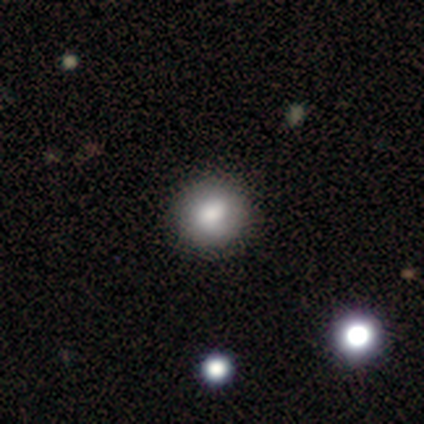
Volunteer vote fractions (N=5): Morphology: type=smooth (60%); roundness=round (67%); merging=none (100%).